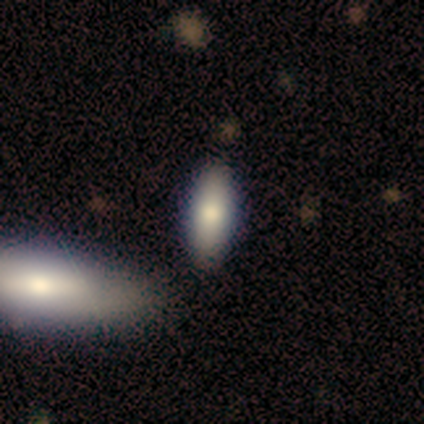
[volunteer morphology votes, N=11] Smooth or featured: smooth — 73% (featured or disk — 18%)
How rounded: in between — 75% (cigar-shaped — 25%)
Merging: none — 60% (merger — 20%)